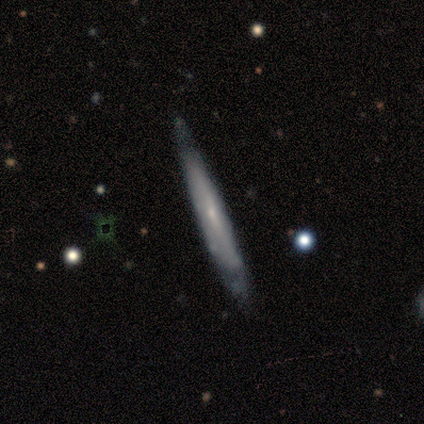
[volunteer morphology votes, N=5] Smooth or featured? 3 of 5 (60%) said featured or disk. Edge-on disk? 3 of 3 (100%) said yes. Edge-on bulge? 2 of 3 (67%) said rounded. Merging? 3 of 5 (60%) said none.